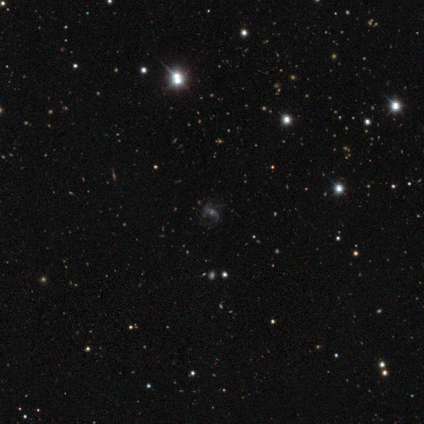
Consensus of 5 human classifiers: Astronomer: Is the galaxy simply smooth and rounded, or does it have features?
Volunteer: featured or disk — 60%.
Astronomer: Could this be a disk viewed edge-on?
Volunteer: no — 100%.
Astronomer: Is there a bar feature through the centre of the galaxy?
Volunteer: strong — 33%, tied with weak and no at 33%.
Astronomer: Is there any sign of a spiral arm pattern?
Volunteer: yes — 100%.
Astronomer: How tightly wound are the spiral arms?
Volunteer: loose — 67%.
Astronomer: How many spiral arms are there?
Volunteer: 1 — 33%, tied with 2 and 3 at 33%.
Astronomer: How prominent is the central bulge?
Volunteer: small — 67%.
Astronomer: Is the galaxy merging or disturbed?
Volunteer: none — 75%.